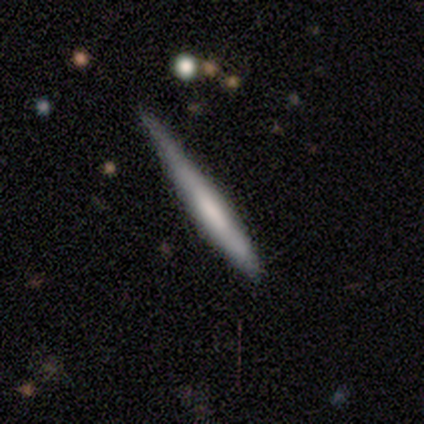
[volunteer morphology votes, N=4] Smooth or featured?
  - smooth: 100% *
  - featured or disk: 0%
  - star or artifact: 0%
How rounded?
  - cigar-shaped: 100% *
  - round: 0%
  - in between: 0%
Merging?
  - minor disturbance: 75% *
  - none: 25%
  - major disturbance: 0%
  - merger: 0%